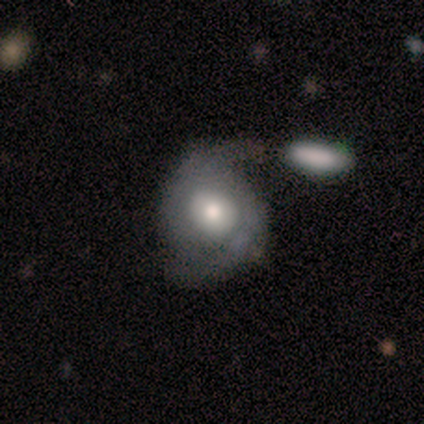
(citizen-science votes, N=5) Q: Smooth or featured?
A: featured or disk (60%); runner-up: smooth (40%)
Q: Edge-on disk?
A: no (100%)
Q: Bar?
A: no (100%)
Q: Spiral arms?
A: yes (100%)
Q: Spiral winding?
A: tight (33%); tied with: medium (33%); loose (33%)
Q: Spiral arm count?
A: 2 (100%)
Q: Bulge size?
A: moderate (67%); runner-up: large (33%)
Q: Merging?
A: none (100%)